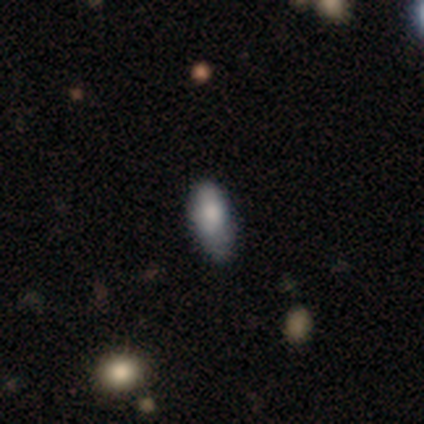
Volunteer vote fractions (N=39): A smooth galaxy with no disk features (82%) that is in between round and cigar-shaped (88%).

Vote fractions:
- Smooth or featured? smooth: 82% / featured or disk: 15% / star or artifact: 3%
- How rounded? in between: 88% / cigar-shaped: 12% / round: 0%
- Merging? none: 55% / minor disturbance: 45% / major disturbance: 0% / merger: 0%